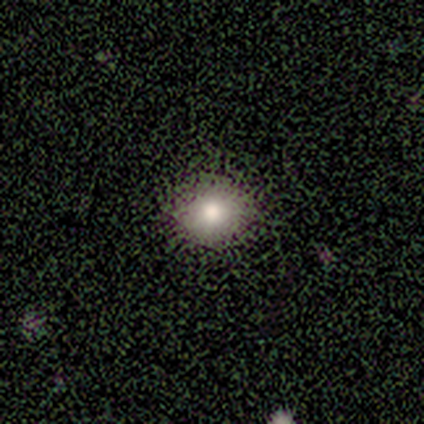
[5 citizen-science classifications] Morphology: type=smooth (100%); roundness=round (80%); merging=none (100%).